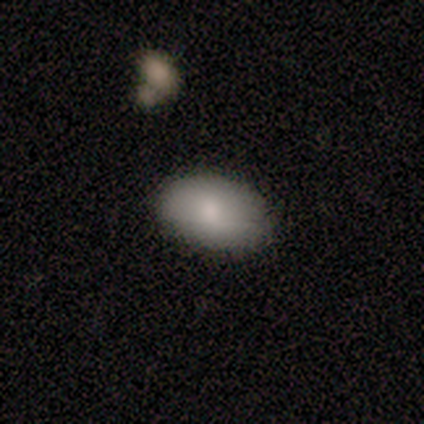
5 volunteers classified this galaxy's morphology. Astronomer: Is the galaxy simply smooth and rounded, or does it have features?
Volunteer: smooth — 80%.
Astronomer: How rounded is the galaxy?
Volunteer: in between — 100%.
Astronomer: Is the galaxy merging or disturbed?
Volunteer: none — 80%.